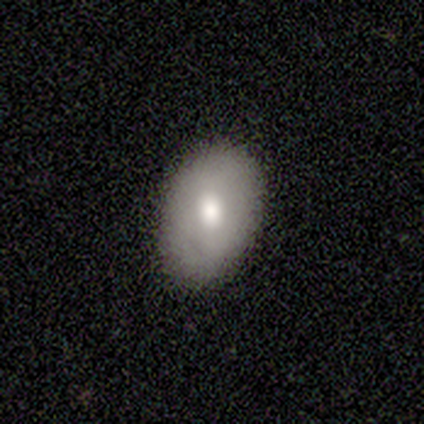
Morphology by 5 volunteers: Overall: smooth (100%). How rounded: in between (60%; round 40%). Merging: none (80%).